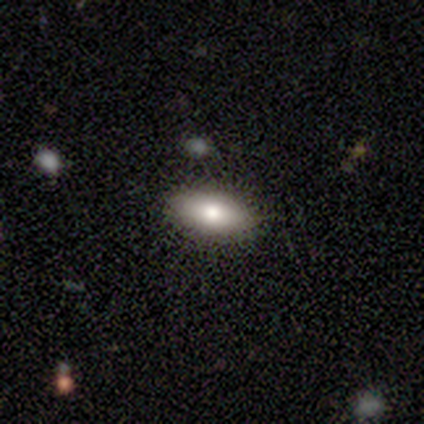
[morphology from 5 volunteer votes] This appears to be a smooth galaxy with no disk features (80%) that is in between round and cigar-shaped (100%). Merging: none (100%).